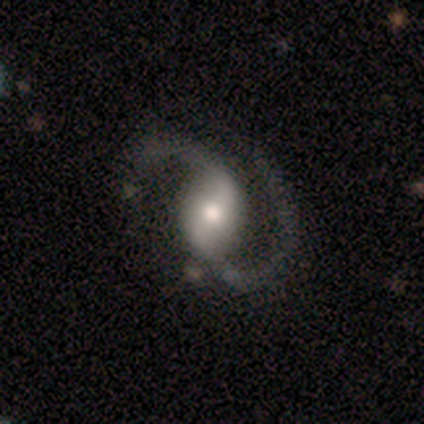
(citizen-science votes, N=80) This is clearly a featured or disk galaxy (91%). It is clearly not viewed edge-on (96%). Bar: possibly weak (50%). Spiral arm pattern: clearly yes (100%). Spiral arm count: clearly 2 (100%). Spiral winding: possibly medium (50%). Central bulge: possibly moderate (50%). Merging: possibly none (59%).